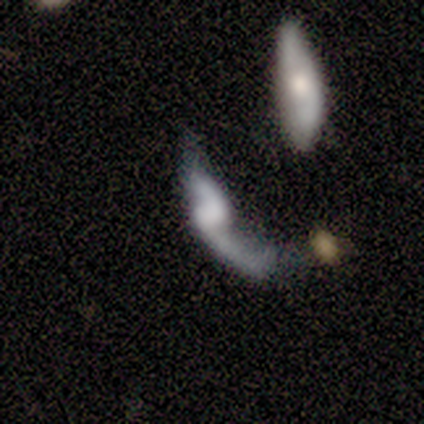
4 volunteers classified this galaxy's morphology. Volunteers were most divided on "edge-on disk" (2-way tie): yes: 50%, no: 50%. More confident: smooth or featured — featured or disk (100%); edge-on bulge — rounded (100%); merging — none (50%).